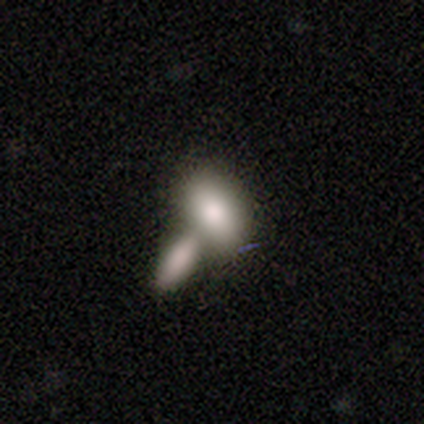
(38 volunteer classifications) This appears to be a smooth galaxy with no disk features (76%) that is in between round and cigar-shaped (90%). Merging: merger (55%).